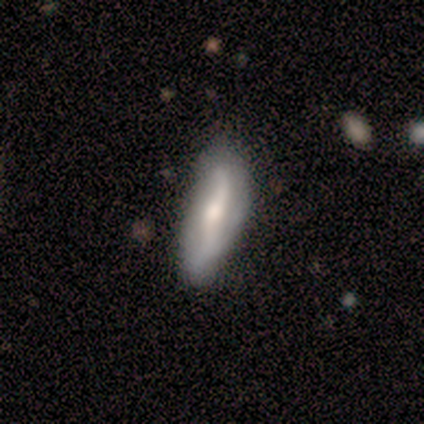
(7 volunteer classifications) smooth-or-featured: featured or disk: 86% | smooth: 14% | star or artifact: 0%
  disk-edge-on: no: 100% | yes: 0%
    bar: no: 50% | strong: 33% | weak: 17%
    has-spiral-arms: yes: 67% | no: 33%
      spiral-winding: loose: 75% | medium: 25% | tight: 0%
      spiral-arm-count: 2: 100% | 1: 0% | 3: 0% | 4: 0% | more than 4: 0% | can't tell: 0%
    bulge-size: moderate: 33% (tied) | small: 33% (tied) | large: 17% | none: 17% | dominant: 0%
  merging: none: 57% | minor disturbance: 43% | major disturbance: 0% | merger: 0%